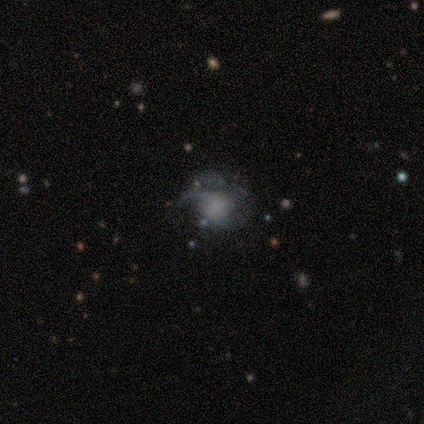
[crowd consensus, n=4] Volunteers were most divided on "smooth or featured" (2-way tie): smooth: 50%, featured or disk: 50%, star or artifact: 0%. More confident: how rounded — round (100%); merging — major disturbance (75%).